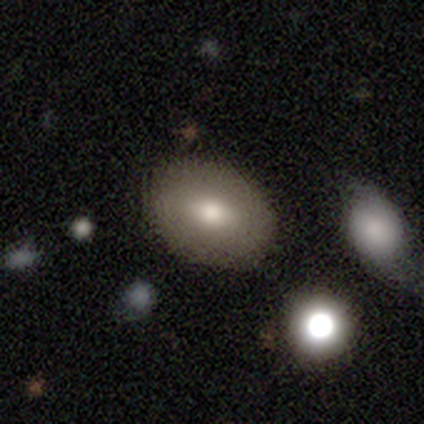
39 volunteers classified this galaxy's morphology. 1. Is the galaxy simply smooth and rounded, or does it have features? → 74% smooth, 21% featured or disk, 5% star or artifact.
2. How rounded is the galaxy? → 79% in between, 21% round, 0% cigar-shaped.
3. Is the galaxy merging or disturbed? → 81% none, 11% minor disturbance, 5% major disturbance, 3% merger.